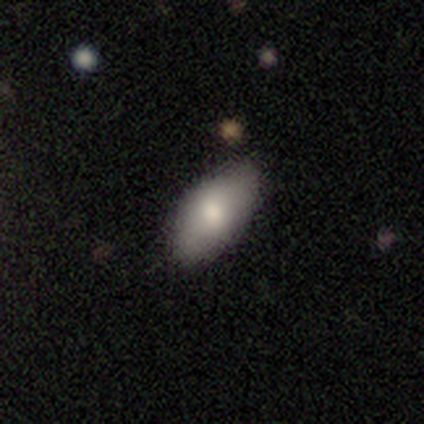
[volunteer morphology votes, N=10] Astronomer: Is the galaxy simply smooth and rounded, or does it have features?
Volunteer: smooth — 70%.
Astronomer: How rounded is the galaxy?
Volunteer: in between — 100%.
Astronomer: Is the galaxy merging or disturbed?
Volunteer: none — 89%.